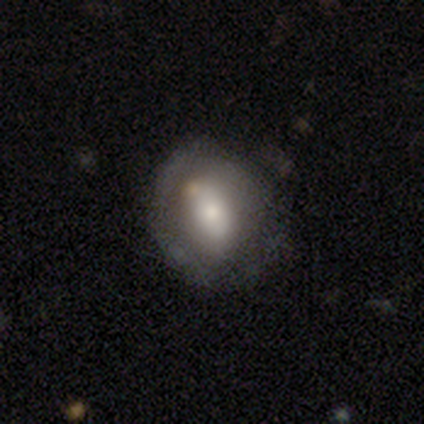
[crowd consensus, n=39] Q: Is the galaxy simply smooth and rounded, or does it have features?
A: smooth — 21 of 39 (54%).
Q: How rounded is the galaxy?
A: in between — 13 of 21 (62%).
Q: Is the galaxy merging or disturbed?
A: none — 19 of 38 (50%).